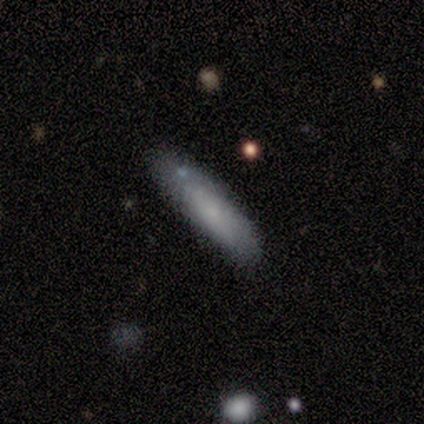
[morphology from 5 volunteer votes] Overall: smooth (60%; featured or disk 40%). How rounded: cigar-shaped (100%). Merging: none (80%).